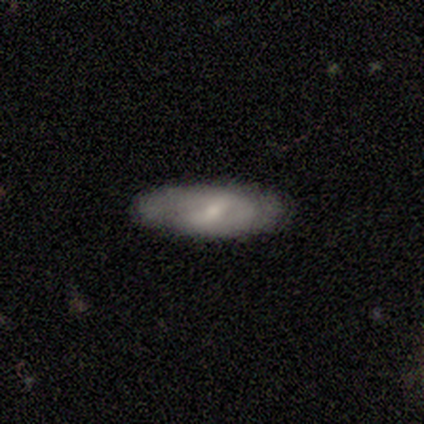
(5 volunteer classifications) smooth 60%, featured or disk 40%, star or artifact 0%. Down the decision tree: how rounded — in between (100%); merging — none (60%).